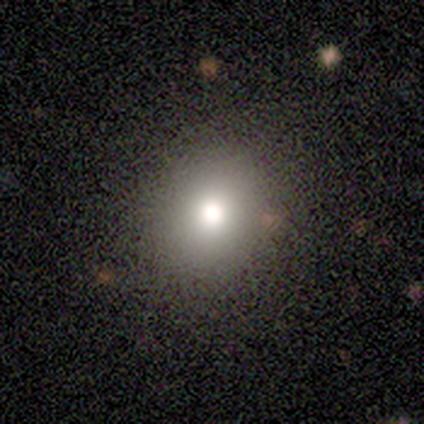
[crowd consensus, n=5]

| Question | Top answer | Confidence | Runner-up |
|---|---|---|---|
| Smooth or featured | smooth | 60% | featured or disk (20%) |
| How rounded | round | 67% | in between (33%) |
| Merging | none | 100% | — |